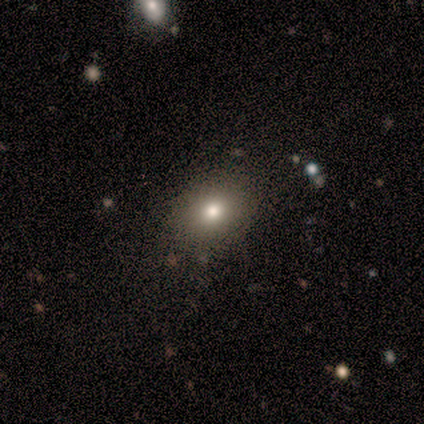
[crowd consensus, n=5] Overall: smooth (100%). How rounded: in between (100%). Merging: none (80%).